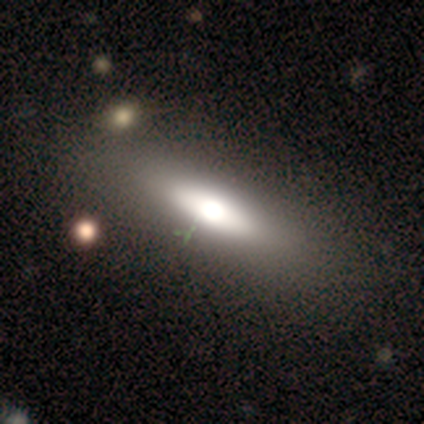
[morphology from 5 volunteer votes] A smooth galaxy with no disk features (60%) that is in between round and cigar-shaped (67%). Merging: none (100%).